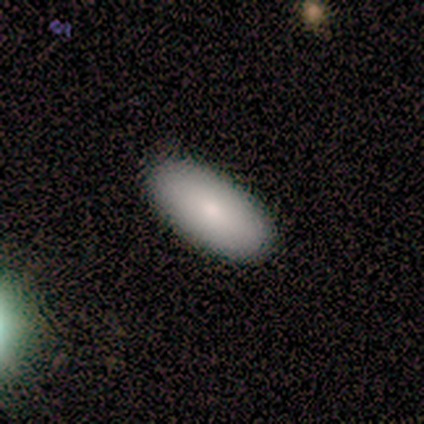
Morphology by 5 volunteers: smooth 60%, featured or disk 20%, star or artifact 20%. Down the decision tree: how rounded — in between (100%); merging — none (100%).